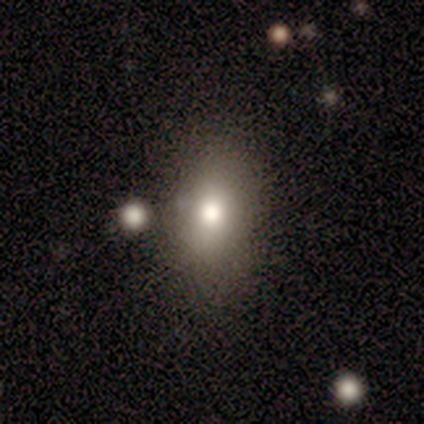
Smooth or featured?
  - smooth: 76% *
  - featured or disk: 14%
  - star or artifact: 11%
How rounded?
  - in between: 75% *
  - round: 21%
  - cigar-shaped: 4%
Merging?
  - none: 61% *
  - minor disturbance: 24%
  - major disturbance: 9%
  - merger: 6%